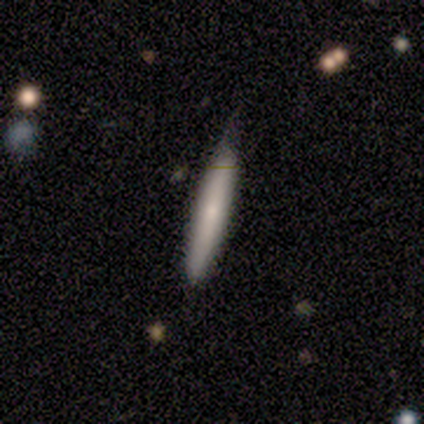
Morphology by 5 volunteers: Overall: smooth (60%; featured or disk 40%). How rounded: cigar-shaped (100%). Merging: minor disturbance (60%; none 40%).